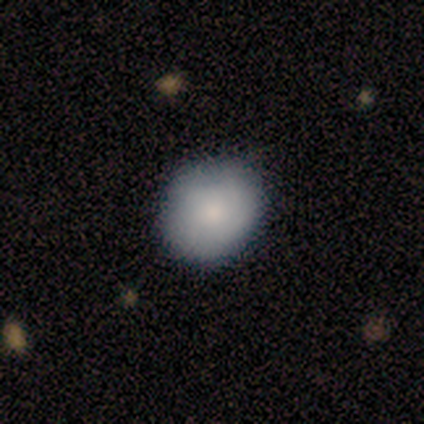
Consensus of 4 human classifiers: Smooth or featured? smooth (100%)
How rounded? round (50%, tied with in between)
Merging? none (75%)